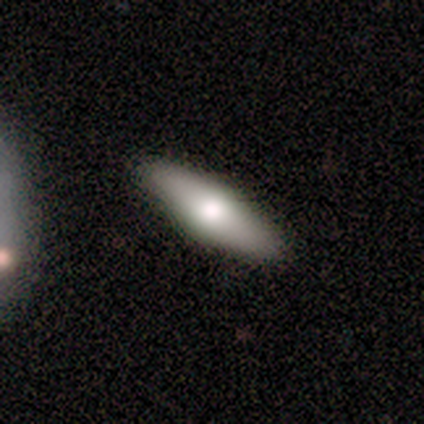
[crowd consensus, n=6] smooth-or-featured: smooth: 67% | featured or disk: 33% | star or artifact: 0%
  how-rounded: in between: 50% (tied) | cigar-shaped: 50% (tied) | round: 0%
  merging: none: 100% | minor disturbance: 0% | major disturbance: 0% | merger: 0%